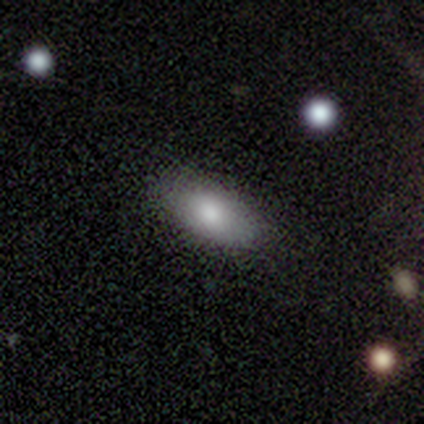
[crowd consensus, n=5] A smooth galaxy with no disk features (100%) that is in between round and cigar-shaped (100%).

Vote fractions:
- Smooth or featured? smooth: 100% / featured or disk: 0% / star or artifact: 0%
- How rounded? in between: 100% / round: 0% / cigar-shaped: 0%
- Merging? none: 80% / major disturbance: 20% / minor disturbance: 0% / merger: 0%